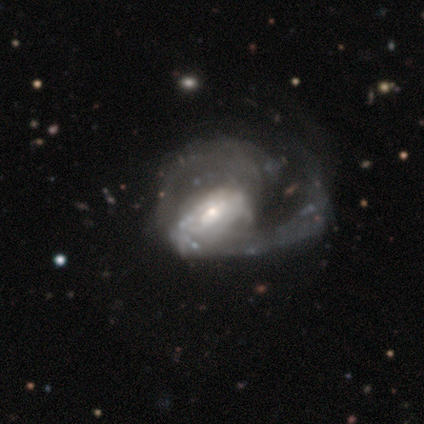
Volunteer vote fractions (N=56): This appears to be a featured or disk galaxy (86%) with no bar (58%), loose (49%) spiral arms (85%) and a small central bulge (48%). Merging: major disturbance (65%).